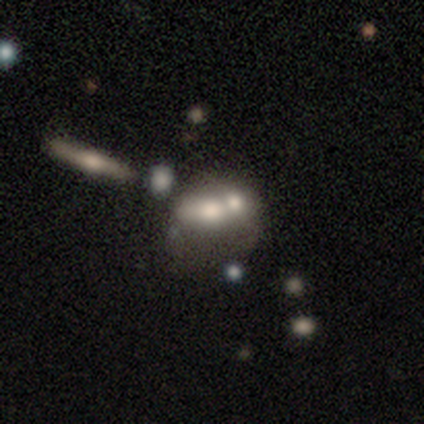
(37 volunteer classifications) Volunteers were most divided on "smooth or featured": smooth: 46%, featured or disk: 43%, star or artifact: 11%. More confident: how rounded — in between (65%); merging — merger (61%).